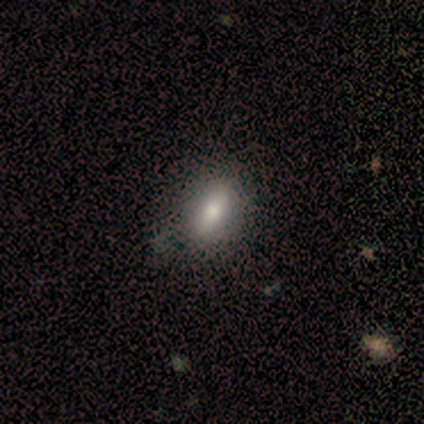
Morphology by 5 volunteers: A smooth galaxy with no disk features (80%) that is in between round and cigar-shaped (100%).

Vote fractions:
- Smooth or featured? smooth: 80% / featured or disk: 20% / star or artifact: 0%
- How rounded? in between: 100% / round: 0% / cigar-shaped: 0%
- Merging? none: 80% / major disturbance: 20% / minor disturbance: 0% / merger: 0%